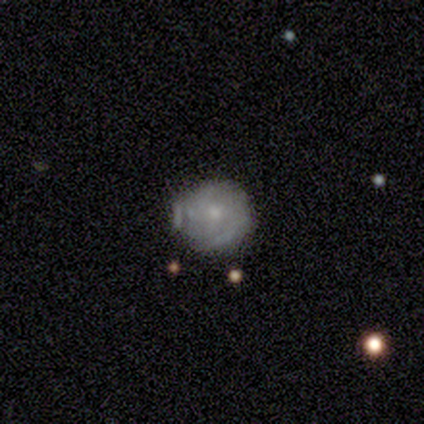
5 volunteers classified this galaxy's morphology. This appears to be a featured or disk galaxy (100%) with no bar (100%), 2 (75%) tight (75%) spiral arms (80%) and a small central bulge (100%). Merging: none (80%).